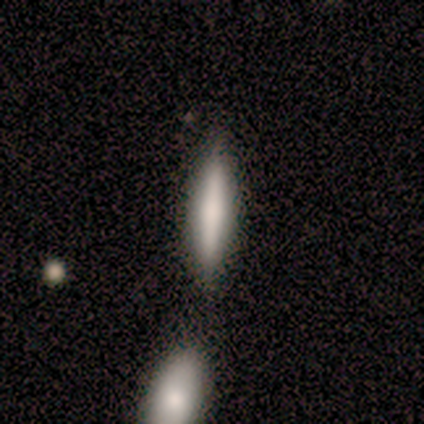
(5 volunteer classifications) This appears to be a smooth galaxy with no disk features (60%) that is cigar-shaped (67%). Merging: none (80%).